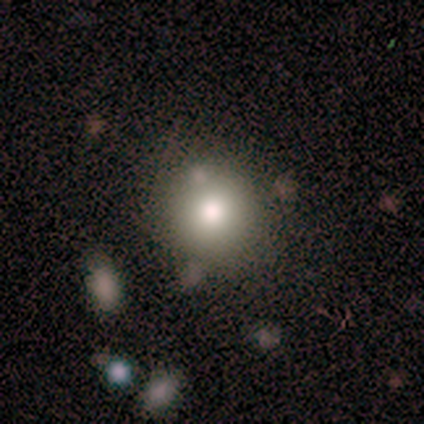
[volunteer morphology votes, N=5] Smooth or featured? smooth (80%)
How rounded? round (75%)
Merging? none (100%)